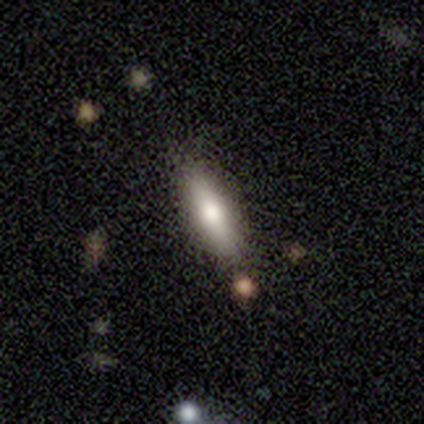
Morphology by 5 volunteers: This is clearly a smooth galaxy (80%). How rounded: likely cigar-shaped (75%). Merging: clearly none (100%).